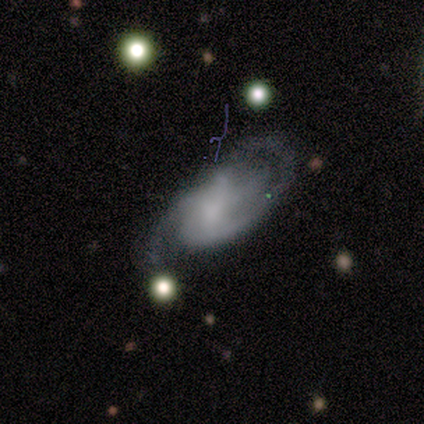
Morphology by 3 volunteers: Q: Smooth or featured?
A: featured or disk (67%); runner-up: smooth (33%)
Q: Edge-on disk?
A: no (100%)
Q: Bar?
A: weak (100%)
Q: Spiral arms?
A: yes (100%)
Q: Spiral winding?
A: tight (50%); tied with: medium (50%)
Q: Spiral arm count?
A: 2 (100%)
Q: Bulge size?
A: none (100%)
Q: Merging?
A: none (67%); runner-up: major disturbance (33%)